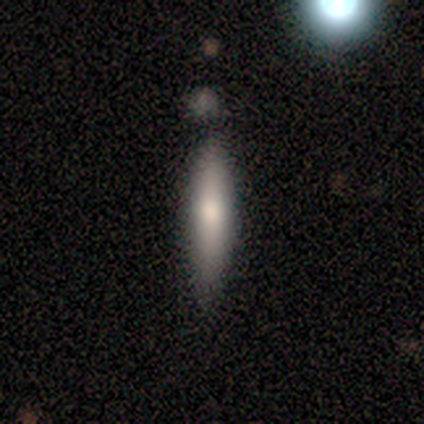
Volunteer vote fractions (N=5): smooth-or-featured: smooth: 60% | featured or disk: 40% | star or artifact: 0%
  how-rounded: cigar-shaped: 100% | round: 0% | in between: 0%
  merging: none: 80% | minor disturbance: 20% | major disturbance: 0% | merger: 0%